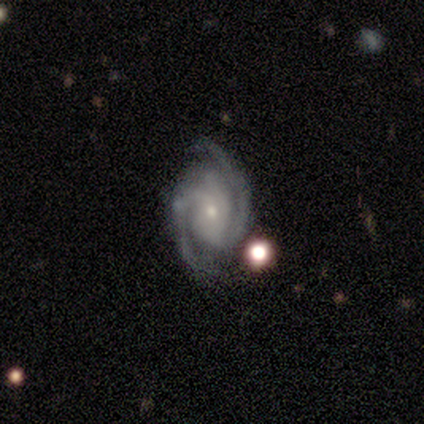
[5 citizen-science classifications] smooth_or_featured: featured or disk (p=0.80) [alt: star or artifact p=0.20]
disk_edge_on: no (p=1.00)
bar: no (p=0.75) [alt: weak p=0.25]
has_spiral_arms: yes (p=1.00)
spiral_winding: tight (p=0.50) [tied with: medium p=0.50]
spiral_arm_count: 2 (p=1.00)
bulge_size: small (p=1.00)
merging: none (p=0.75) [alt: merger p=0.25]